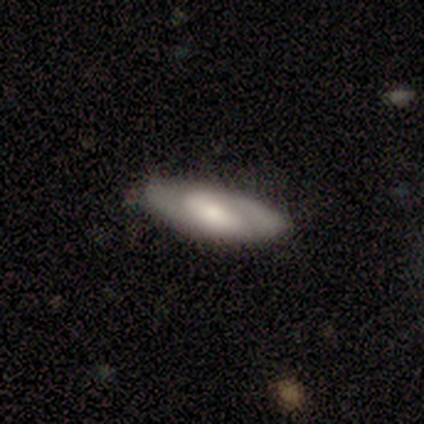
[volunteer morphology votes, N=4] smooth_or_featured: featured or disk (p=0.75) [alt: smooth p=0.25]
disk_edge_on: no (p=1.00)
bar: weak (p=1.00)
has_spiral_arms: yes (p=1.00)
spiral_winding: tight (p=0.67) [alt: medium p=0.33]
spiral_arm_count: 2 (p=1.00)
bulge_size: moderate (p=1.00)
merging: none (p=1.00)